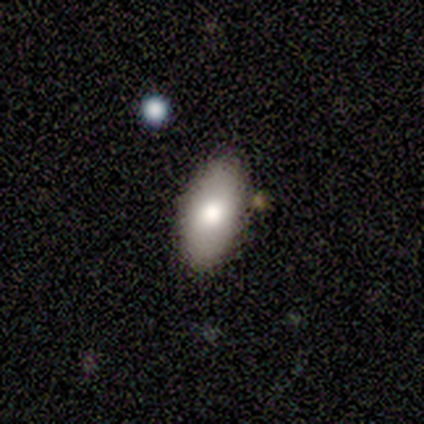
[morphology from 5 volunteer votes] type=smooth (80%); roundness=in between (100%); merging=none (100%).